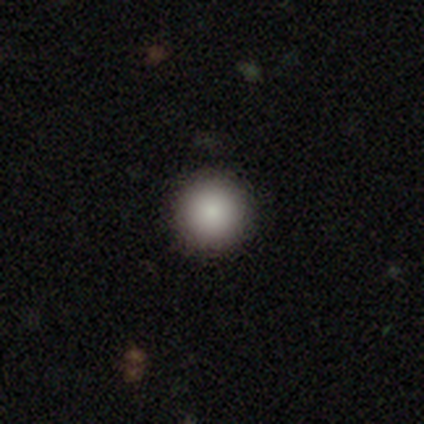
A smooth galaxy with no disk features (95%) that is round (97%). Merging: none (94%).